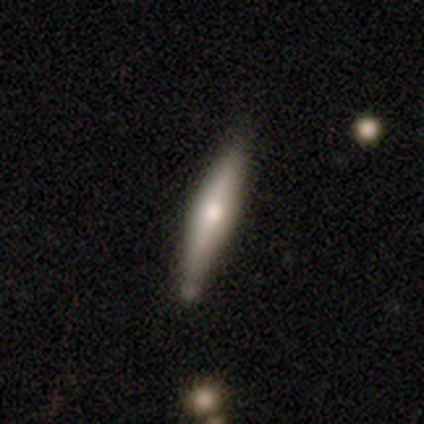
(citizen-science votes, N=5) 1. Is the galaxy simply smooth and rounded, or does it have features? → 80% featured or disk, 20% smooth, 0% star or artifact.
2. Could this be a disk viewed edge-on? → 100% yes, 0% no.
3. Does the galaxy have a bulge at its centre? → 100% rounded, 0% boxy, 0% none.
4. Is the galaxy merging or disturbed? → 80% none, 20% minor disturbance, 0% major disturbance, 0% merger.